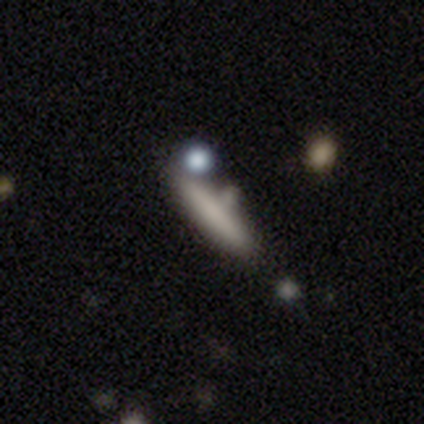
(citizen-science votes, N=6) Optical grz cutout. It shows a smooth galaxy with no disk features (83%) that is cigar-shaped (100%). Merging: none (50%).